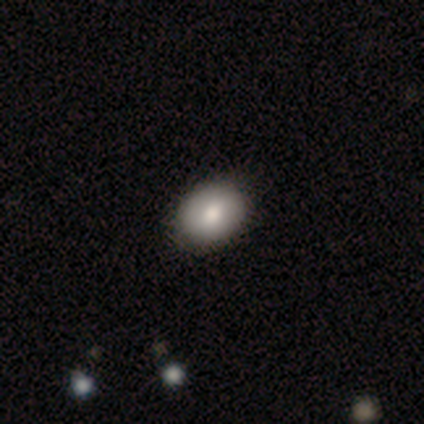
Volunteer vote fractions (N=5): Smooth or featured: smooth — 100%
How rounded: in between — 60% (round — 40%)
Merging: none — 100%